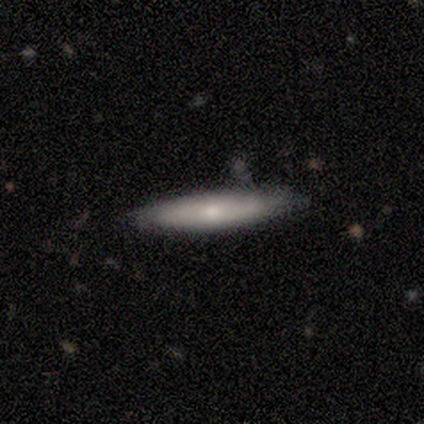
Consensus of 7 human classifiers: smooth-or-featured: featured or disk: 71% | smooth: 29% | star or artifact: 0%
  disk-edge-on: yes: 60% | no: 40%
    edge-on-bulge: none: 67% | rounded: 33% | boxy: 0%
  merging: none: 86% | minor disturbance: 14% | major disturbance: 0% | merger: 0%